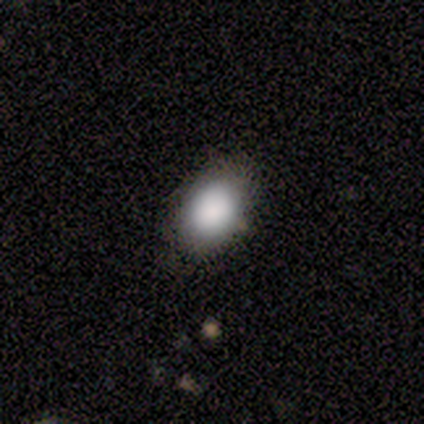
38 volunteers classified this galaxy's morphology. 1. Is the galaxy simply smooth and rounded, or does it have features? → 84% smooth, 11% featured or disk, 5% star or artifact.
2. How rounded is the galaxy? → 91% in between, 9% round, 0% cigar-shaped.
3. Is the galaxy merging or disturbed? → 86% none, 14% minor disturbance, 0% major disturbance, 0% merger.